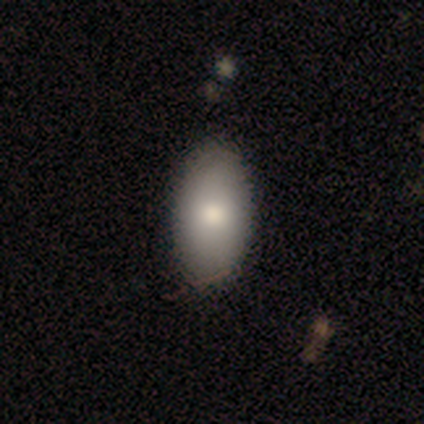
smooth-or-featured: smooth: 71% | featured or disk: 29% | star or artifact: 0%
  how-rounded: in between: 100% | round: 0% | cigar-shaped: 0%
  merging: none: 86% | minor disturbance: 14% | major disturbance: 0% | merger: 0%